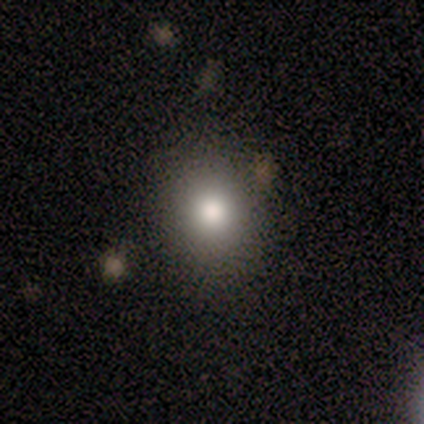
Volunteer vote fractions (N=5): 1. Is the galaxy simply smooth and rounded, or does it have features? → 80% smooth, 20% featured or disk, 0% star or artifact.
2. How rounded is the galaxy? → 50% round (tied), 50% in between (tied), 0% cigar-shaped.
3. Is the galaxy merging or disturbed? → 60% none, 20% minor disturbance, 20% major disturbance, 0% merger.